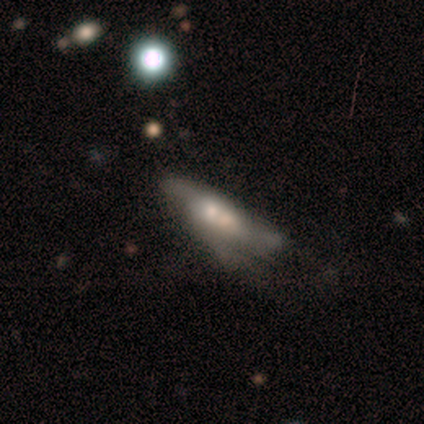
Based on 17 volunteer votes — This is possibly a featured or disk galaxy (59%). It is clearly not viewed edge-on (80%). Bar: clearly no (88%). Spiral arm pattern: likely no (75%). Central bulge: possibly small (50%). Merging: marginally major disturbance (38%).